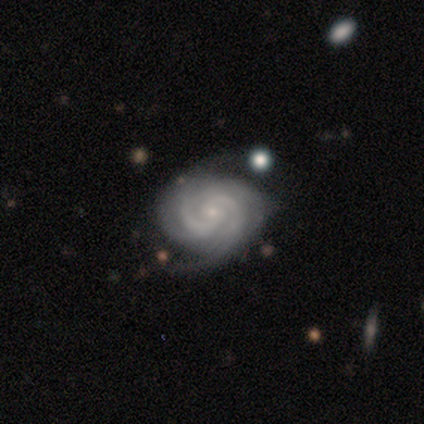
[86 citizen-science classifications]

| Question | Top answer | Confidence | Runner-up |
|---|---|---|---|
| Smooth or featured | featured or disk | 94% | star or artifact (3%) |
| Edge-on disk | no | 96% | yes (4%) |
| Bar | no | 64% | weak (31%) |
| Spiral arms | yes | 100% | — |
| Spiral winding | tight | 60% | medium (29%) |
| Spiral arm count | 2 | 72% | 3 (9%) |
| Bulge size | small | 87% | moderate (6%) |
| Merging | none | 80% | minor disturbance (17%) |